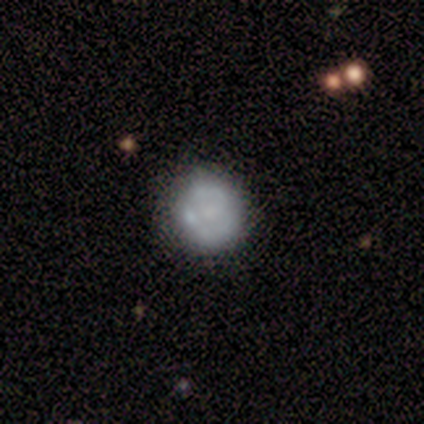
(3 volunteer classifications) Smooth or featured? featured or disk (67%)
Edge-on disk? no (100%)
Bar? no (100%)
Spiral arms? no (100%)
Bulge size? small (50%, tied with none)
Merging? minor disturbance (67%)